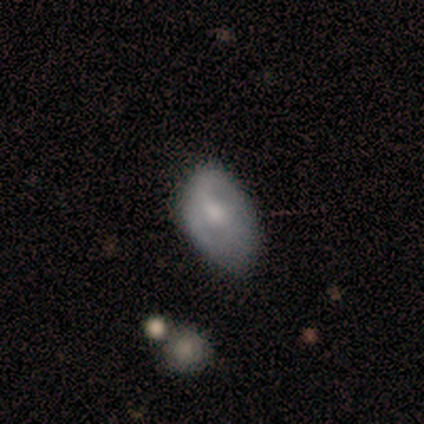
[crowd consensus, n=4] smooth 75%, featured or disk 25%, star or artifact 0%. Down the decision tree: how rounded — in between (67%); merging — none (50%, tied with minor disturbance).